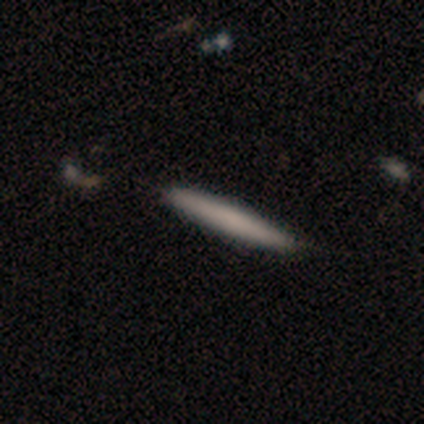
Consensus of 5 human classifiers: Smooth or featured?
  - smooth: 80% *
  - featured or disk: 20%
  - star or artifact: 0%
How rounded?
  - cigar-shaped: 100% *
  - round: 0%
  - in between: 0%
Merging?
  - none: 80% *
  - minor disturbance: 20%
  - major disturbance: 0%
  - merger: 0%